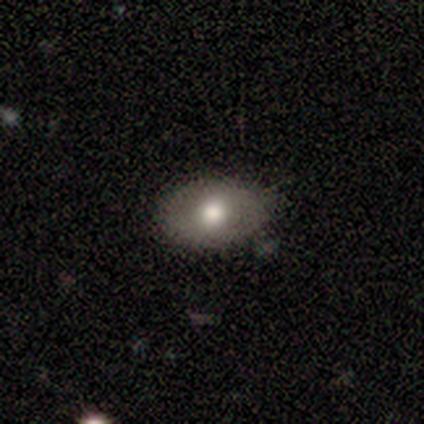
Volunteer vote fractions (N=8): smooth 88%, star or artifact 12%, featured or disk 0%. Down the decision tree: how rounded — in between (71%); merging — none (86%).